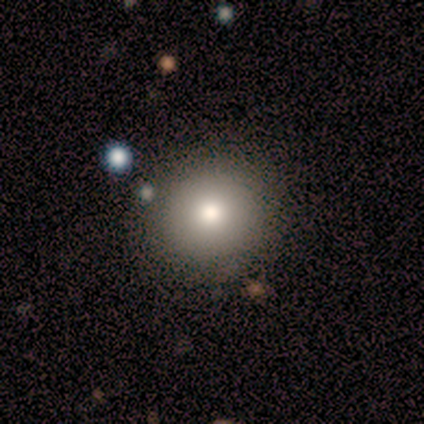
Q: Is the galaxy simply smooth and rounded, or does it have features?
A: smooth — 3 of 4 (75%).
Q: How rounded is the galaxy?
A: round — 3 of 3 (100%).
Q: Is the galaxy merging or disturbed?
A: none — 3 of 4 (75%).